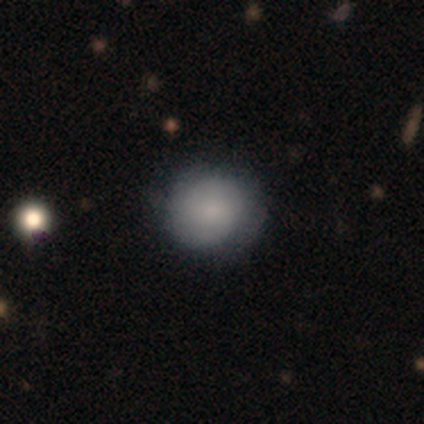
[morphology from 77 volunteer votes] Smooth or featured?
  - smooth: 68% *
  - featured or disk: 26%
  - star or artifact: 6%
How rounded?
  - round: 90% *
  - in between: 10%
  - cigar-shaped: 0%
Merging?
  - none: 38% *
  - minor disturbance: 10%
  - major disturbance: 4%
  - merger: 1%